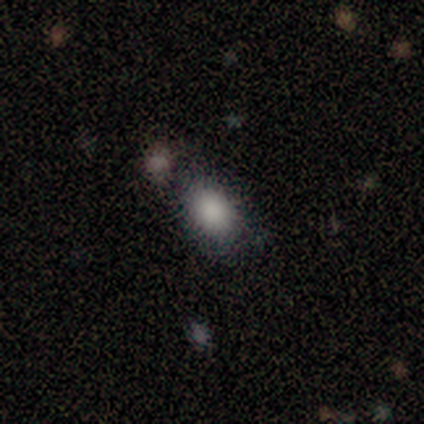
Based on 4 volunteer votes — A smooth galaxy with no disk features (100%) that is in between round and cigar-shaped (100%).

Vote fractions:
- Smooth or featured? smooth: 100% / featured or disk: 0% / star or artifact: 0%
- How rounded? in between: 100% / round: 0% / cigar-shaped: 0%
- Merging? none: 75% / merger: 25% / minor disturbance: 0% / major disturbance: 0%